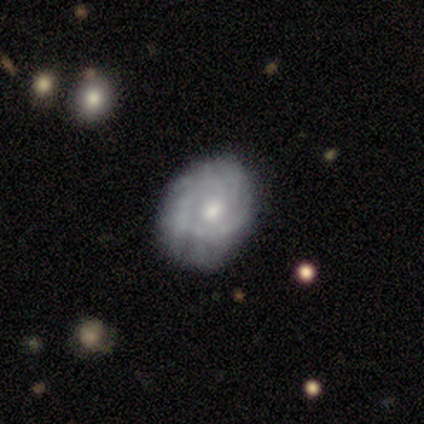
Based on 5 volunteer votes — A smooth galaxy with no disk features (40%, tied with featured or disk) that is round (50%, tied with in between). Merging: none (75%).